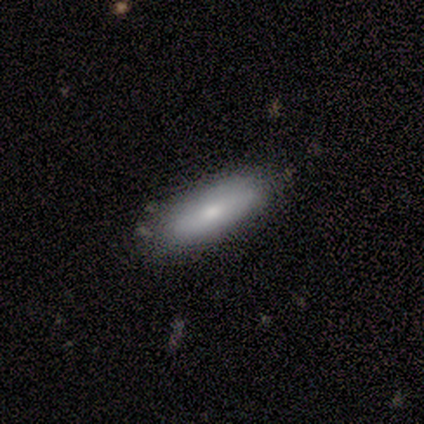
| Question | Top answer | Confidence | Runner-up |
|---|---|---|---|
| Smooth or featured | smooth | 56% | featured or disk (22%) |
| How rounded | in between | 60% | cigar-shaped (40%) |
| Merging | none | 100% | — |